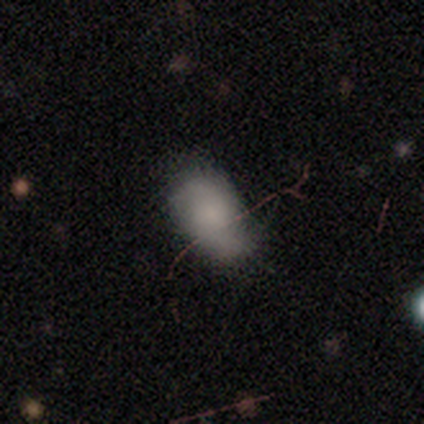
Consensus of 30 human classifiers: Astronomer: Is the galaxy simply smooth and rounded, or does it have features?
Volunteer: smooth — 60%.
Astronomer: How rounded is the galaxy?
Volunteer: in between — 100%.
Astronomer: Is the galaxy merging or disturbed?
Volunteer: none — 72%.